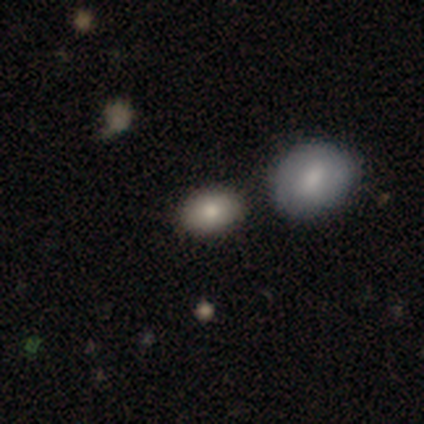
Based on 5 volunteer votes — smooth 80%, featured or disk 20%, star or artifact 0%. Down the decision tree: how rounded — in between (100%); merging — none (100%).